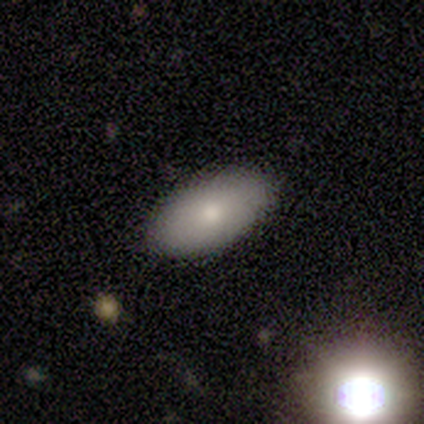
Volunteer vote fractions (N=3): A smooth galaxy with no disk features (33%, tied with featured or disk and star or artifact) that is in between round and cigar-shaped (100%).

Vote fractions:
- Smooth or featured? smooth: 33% (tied) / featured or disk: 33% (tied) / star or artifact: 33% (tied)
- How rounded? in between: 100% / round: 0% / cigar-shaped: 0%
- Merging? none: 100% / minor disturbance: 0% / major disturbance: 0% / merger: 0%